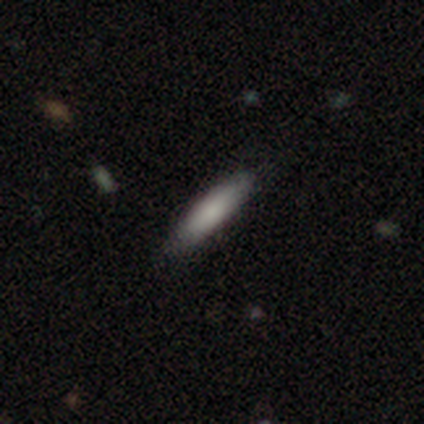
Smooth or featured? 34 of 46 (74%) said smooth. How rounded? 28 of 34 (82%) said cigar-shaped. Merging? 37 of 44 (84%) said none.